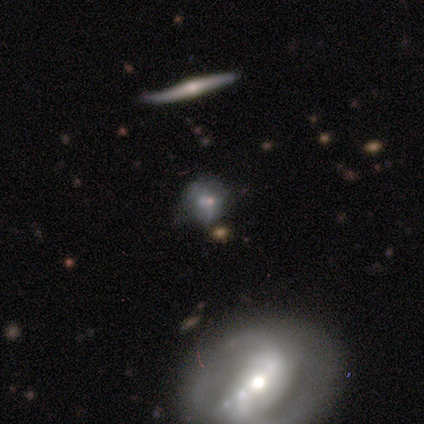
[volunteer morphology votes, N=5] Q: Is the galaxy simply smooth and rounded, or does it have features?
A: smooth — 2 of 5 (40%, tied with featured or disk).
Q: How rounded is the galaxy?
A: round — 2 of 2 (100%).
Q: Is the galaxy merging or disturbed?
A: none — 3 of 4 (75%).